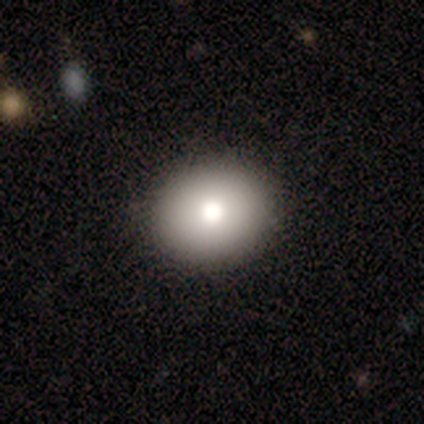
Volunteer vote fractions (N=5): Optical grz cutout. It shows a smooth galaxy with no disk features (80%) that is round (75%). Merging: none (100%).